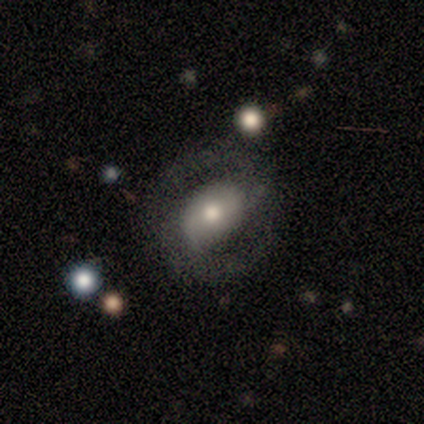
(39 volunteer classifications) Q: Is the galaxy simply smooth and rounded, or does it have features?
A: featured or disk — 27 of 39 (69%).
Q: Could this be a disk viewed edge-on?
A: no — 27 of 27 (100%).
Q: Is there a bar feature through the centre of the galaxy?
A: weak — 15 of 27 (56%).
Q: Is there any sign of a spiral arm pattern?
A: yes — 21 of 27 (78%).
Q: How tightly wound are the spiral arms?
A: medium — 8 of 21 (38%).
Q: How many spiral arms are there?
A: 2 — 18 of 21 (86%).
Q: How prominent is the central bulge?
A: moderate — 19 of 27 (70%).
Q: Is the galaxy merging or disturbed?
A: none — 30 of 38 (79%).